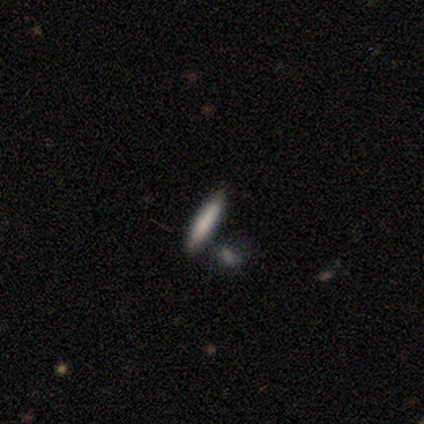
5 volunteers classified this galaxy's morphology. Overall: smooth (60%; star or artifact 40%). How rounded: cigar-shaped (100%). Merging: none (67%; merger 33%).